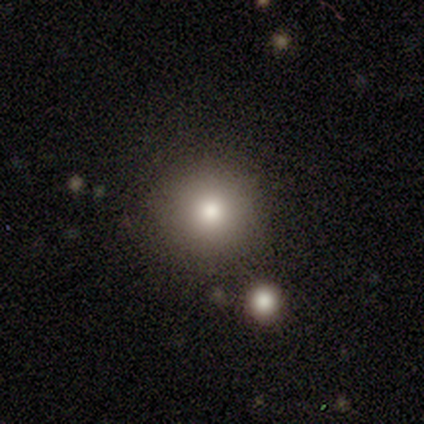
smooth 100%, featured or disk 0%, star or artifact 0%. Down the decision tree: how rounded — round (100%); merging — none (80%).